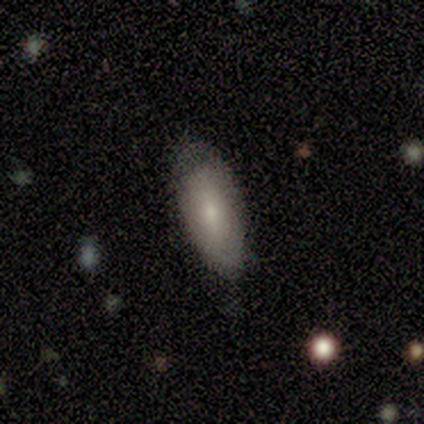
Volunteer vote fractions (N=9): Smooth or featured? smooth (56%)
How rounded? in between (100%)
Merging? none (62%)